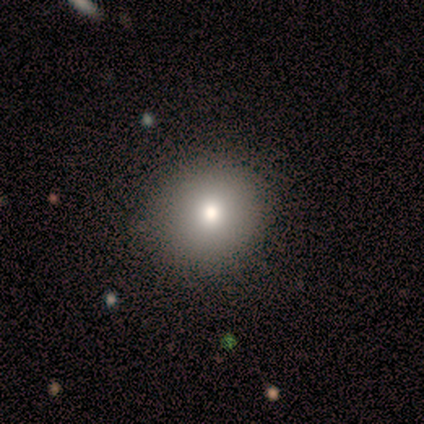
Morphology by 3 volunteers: Smooth or featured: smooth — 100%
How rounded: round — 100%
Merging: none — 67% (major disturbance — 33%)